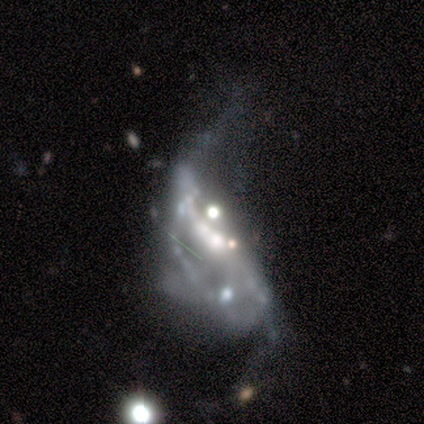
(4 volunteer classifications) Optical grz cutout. It shows a featured or disk galaxy (100%) with no bar (100%), loose (100%) spiral arms (50%, tied with no) and a moderate central bulge (50%). Merging: major disturbance (50%, tied with merger).